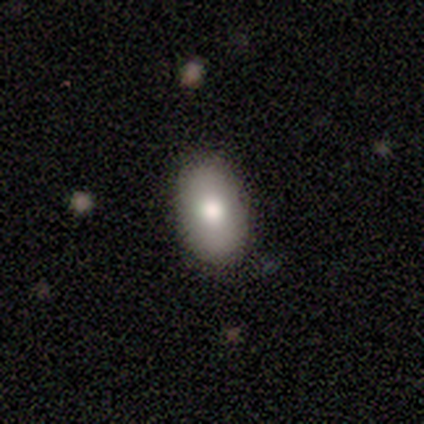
Smooth or featured?
  - smooth: 100% *
  - featured or disk: 0%
  - star or artifact: 0%
How rounded?
  - in between: 100% *
  - round: 0%
  - cigar-shaped: 0%
Merging?
  - none: 100% *
  - minor disturbance: 0%
  - major disturbance: 0%
  - merger: 0%